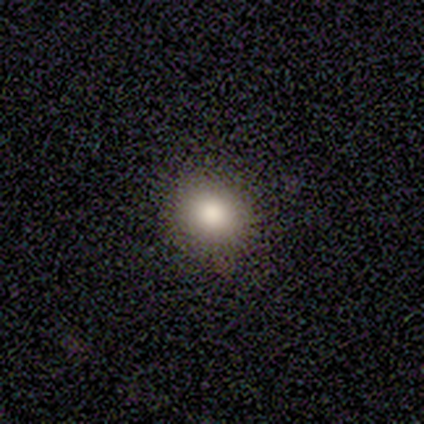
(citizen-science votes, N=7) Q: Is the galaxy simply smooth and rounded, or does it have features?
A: smooth — 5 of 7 (71%).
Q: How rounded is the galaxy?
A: round — 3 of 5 (60%).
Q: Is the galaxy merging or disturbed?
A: none — 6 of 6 (100%).